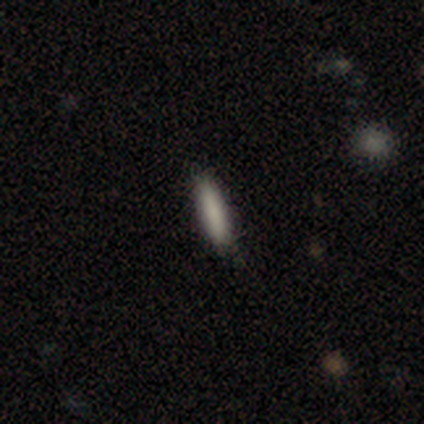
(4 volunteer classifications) Smooth or featured? 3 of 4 (75%) said smooth. How rounded? 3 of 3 (100%) said cigar-shaped. Merging? 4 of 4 (100%) said none.